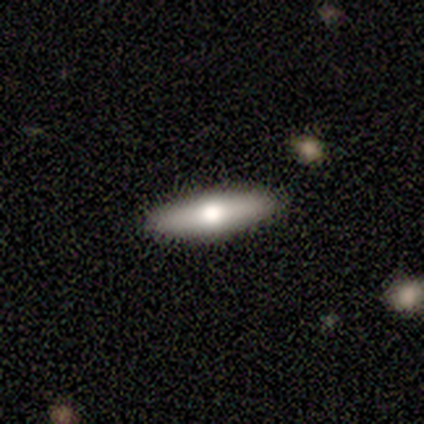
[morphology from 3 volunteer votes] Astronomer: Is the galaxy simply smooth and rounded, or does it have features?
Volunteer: smooth — 67%.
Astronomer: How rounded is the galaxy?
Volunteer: cigar-shaped — 100%.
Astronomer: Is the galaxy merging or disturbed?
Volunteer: none — 100%.